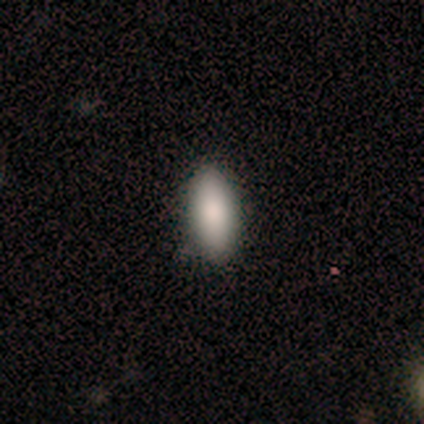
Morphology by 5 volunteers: This is clearly a smooth galaxy (100%). How rounded: clearly in between (100%). Merging: clearly none (80%).